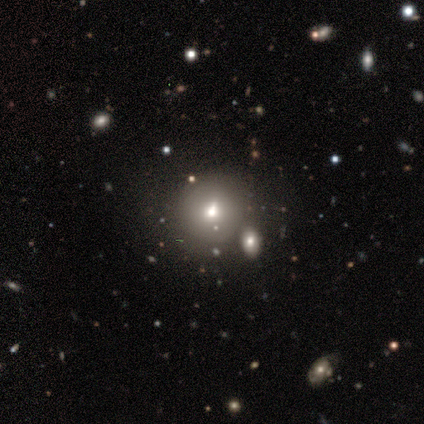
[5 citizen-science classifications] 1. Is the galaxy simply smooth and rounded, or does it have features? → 60% smooth, 20% featured or disk, 20% star or artifact.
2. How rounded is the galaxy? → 67% round, 33% in between, 0% cigar-shaped.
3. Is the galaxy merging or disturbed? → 100% none, 0% minor disturbance, 0% major disturbance, 0% merger.